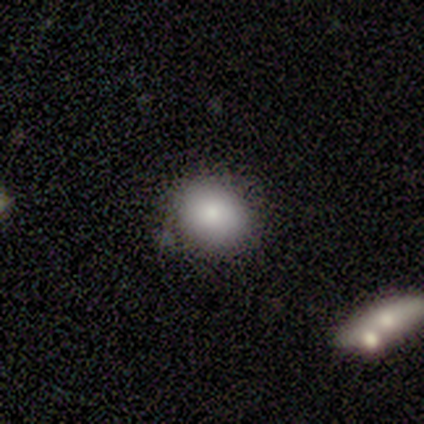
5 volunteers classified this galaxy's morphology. Volunteers were most divided on "merging": minor disturbance: 60%, none: 40%, major disturbance: 0%, merger: 0%. More confident: smooth or featured — smooth (100%); how rounded — round (80%).